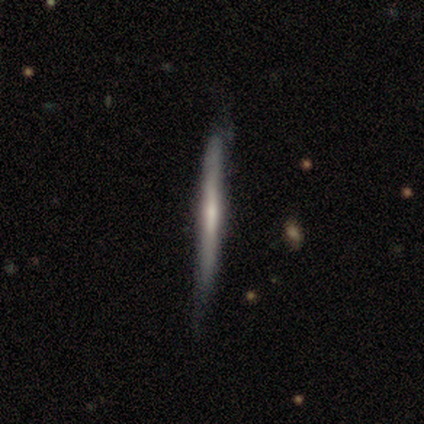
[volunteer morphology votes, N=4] This appears to be a featured or disk galaxy (75%) viewed edge-on (100%) with a boxy central bulge (33%, tied with none and rounded). Merging: none (50%, tied with minor disturbance).